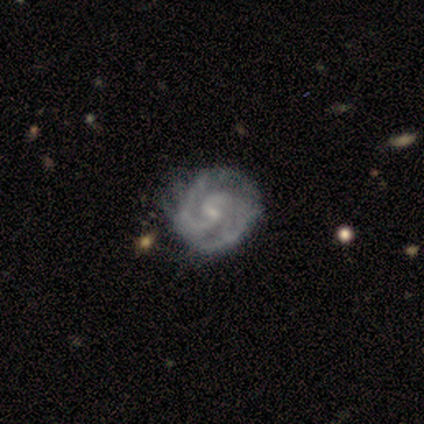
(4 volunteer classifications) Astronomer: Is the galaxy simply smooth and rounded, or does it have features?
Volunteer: featured or disk — 75%.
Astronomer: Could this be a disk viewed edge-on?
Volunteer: no — 100%.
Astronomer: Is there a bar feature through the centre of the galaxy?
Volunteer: weak — 100%.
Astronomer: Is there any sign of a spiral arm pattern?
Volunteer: yes — 100%.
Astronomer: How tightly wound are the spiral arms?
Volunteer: medium — 67%.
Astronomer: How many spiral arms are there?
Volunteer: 3 — 33%, tied with 4 and can't tell at 33%.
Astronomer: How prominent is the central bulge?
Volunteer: moderate — 67%.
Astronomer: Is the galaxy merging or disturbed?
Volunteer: none — 50%, tied with minor disturbance at 50%.